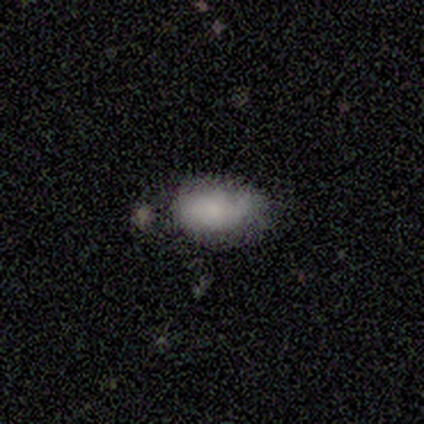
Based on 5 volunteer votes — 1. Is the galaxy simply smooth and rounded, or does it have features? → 80% smooth, 20% star or artifact, 0% featured or disk.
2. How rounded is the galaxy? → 100% in between, 0% round, 0% cigar-shaped.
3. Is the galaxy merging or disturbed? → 50% minor disturbance, 25% none, 25% merger, 0% major disturbance.